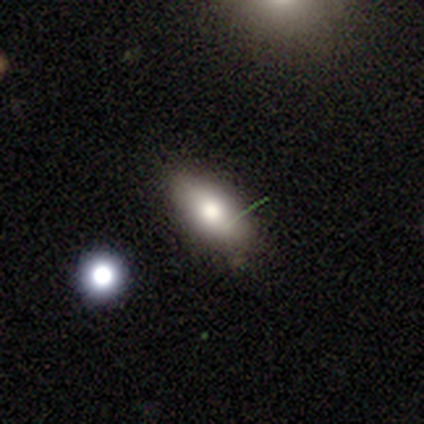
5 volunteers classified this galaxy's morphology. Smooth or featured: smooth — 100%
How rounded: in between — 80% (round — 20%)
Merging: none — 80% (major disturbance — 20%)